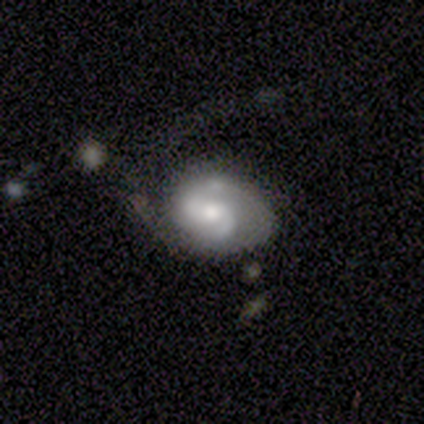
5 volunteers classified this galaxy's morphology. type=featured or disk (60%); edge-on=no (100%); bar=no (100%); spiral arms=yes (100%); winding=medium (100%); arm count=can't tell (67%); bulge=small (67%); merging=none (60%).